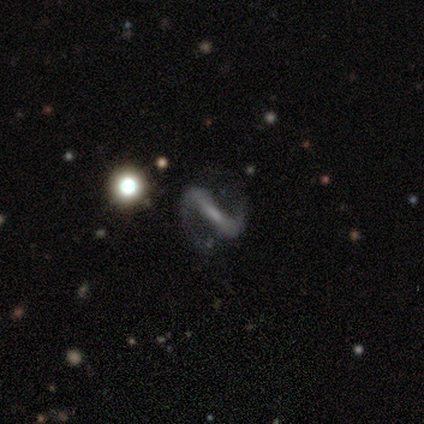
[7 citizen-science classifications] Smooth or featured? featured or disk (86%)
Edge-on disk? no (83%)
Bar? strong (100%)
Spiral arms? yes (100%)
Spiral winding? medium (60%)
Spiral arm count? 2 (100%)
Bulge size? small (60%)
Merging? none (83%)